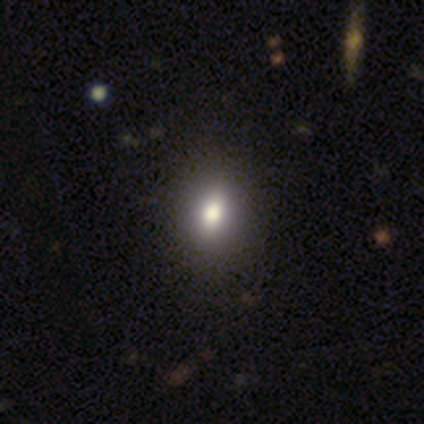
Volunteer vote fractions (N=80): This is clearly a smooth galaxy (80%). How rounded: likely in between (69%). Merging: possibly none (46%).